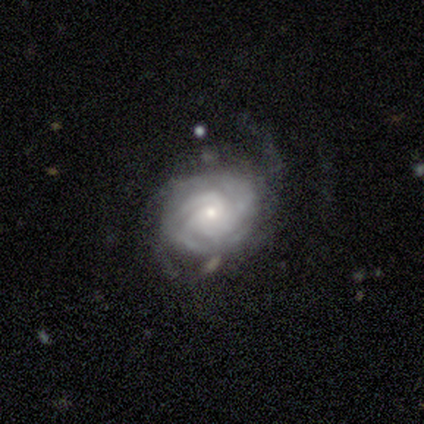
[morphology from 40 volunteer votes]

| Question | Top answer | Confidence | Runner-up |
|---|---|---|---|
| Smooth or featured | featured or disk | 90% | smooth (8%) |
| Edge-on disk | no | 100% | — |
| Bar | no | 81% | weak (19%) |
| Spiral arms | yes | 94% | no (6%) |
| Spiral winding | tight | 88% | medium (12%) |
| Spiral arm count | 3 | 35% | can't tell (32%) |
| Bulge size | small | 78% | moderate (22%) |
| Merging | none | 54% | minor disturbance (26%) |